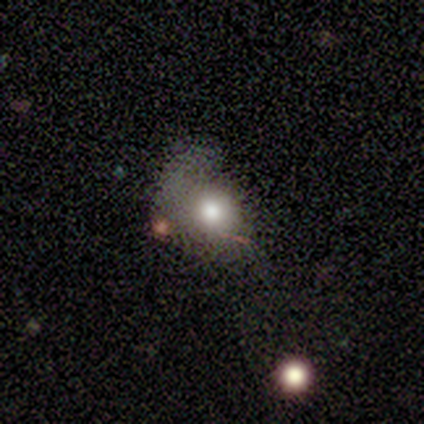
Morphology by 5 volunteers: Q: Smooth or featured?
A: smooth (60%); runner-up: featured or disk (40%)
Q: How rounded?
A: in between (67%); runner-up: round (33%)
Q: Merging?
A: major disturbance (80%); runner-up: none (20%)